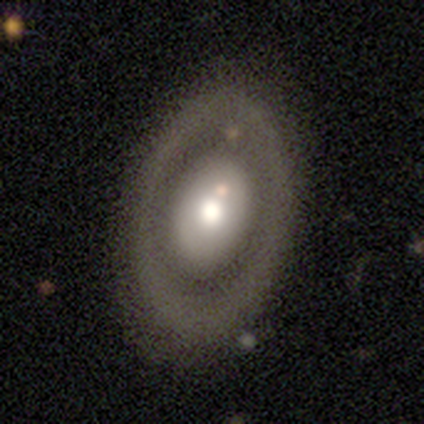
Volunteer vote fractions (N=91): Smooth or featured? featured or disk (56%)
Edge-on disk? no (96%)
Bar? no (96%)
Spiral arms? no (96%)
Bulge size? moderate (51%)
Merging? none (72%)